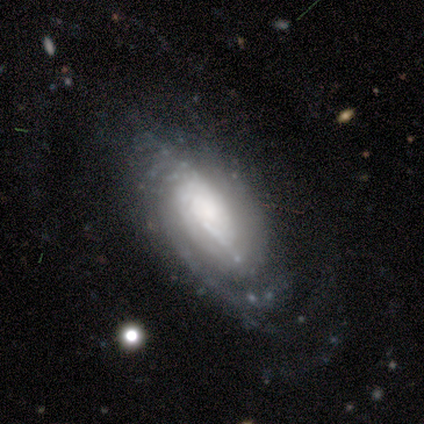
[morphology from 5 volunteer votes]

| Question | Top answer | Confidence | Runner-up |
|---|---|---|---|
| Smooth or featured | featured or disk | 100% | — |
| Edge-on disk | no | 80% | yes (20%) |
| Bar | no | 75% | weak (25%) |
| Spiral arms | yes | 100% | — |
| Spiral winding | tight | 50% | medium (25%) |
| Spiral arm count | can't tell | 100% | — |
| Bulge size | moderate | 50% | large (25%) |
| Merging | none | 80% | minor disturbance (20%) |